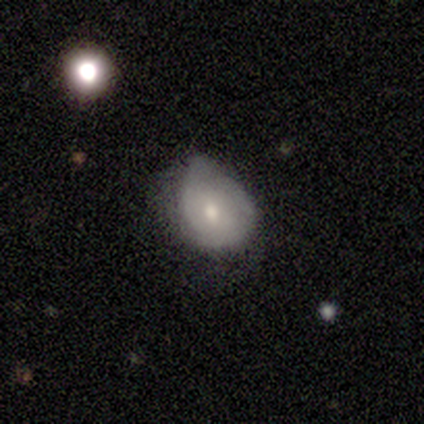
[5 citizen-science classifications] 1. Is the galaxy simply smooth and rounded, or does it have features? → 80% smooth, 20% featured or disk, 0% star or artifact.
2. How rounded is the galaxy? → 75% in between, 25% round, 0% cigar-shaped.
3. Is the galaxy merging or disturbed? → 80% minor disturbance, 20% major disturbance, 0% none, 0% merger.